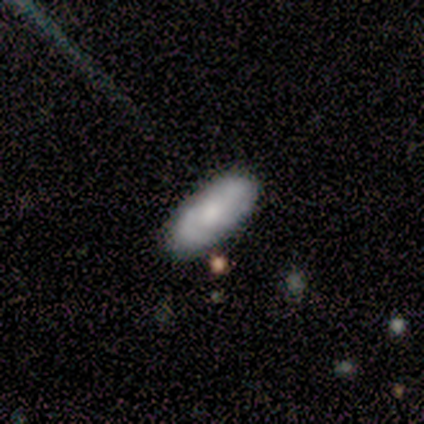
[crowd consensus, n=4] Smooth or featured? featured or disk (75%)
Edge-on disk? no (100%)
Bar? no (100%)
Spiral arms? yes (67%)
Spiral winding? tight (50%, tied with medium)
Spiral arm count? 1 (50%, tied with 2)
Bulge size? large (33%, tied with moderate and small)
Merging? none (75%)